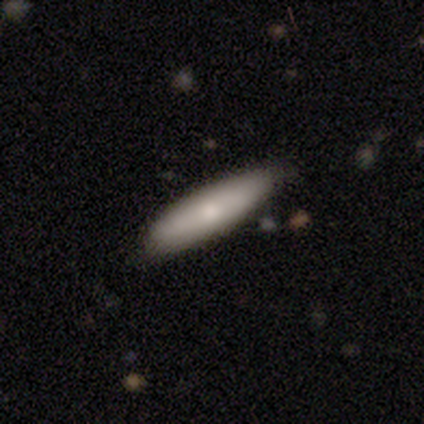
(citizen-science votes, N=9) smooth_or_featured: smooth (p=0.67) [alt: featured or disk p=0.33]
how_rounded: cigar-shaped (p=0.83) [alt: in between p=0.17]
merging: none (p=1.00)